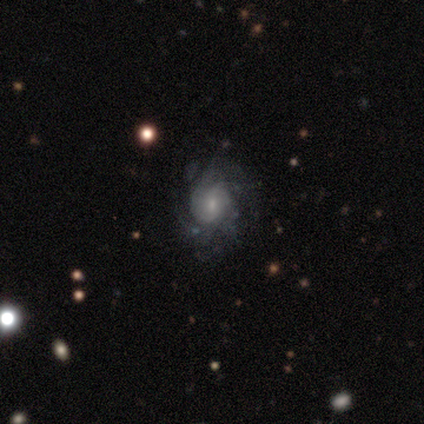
Overall: featured or disk (100%). Edge-on disk: no (100%). Bar: no (60%; weak 40%). Spiral arms: yes (100%). Spiral arm count: can't tell (40%; 2 20%). Spiral winding: tight (60%; loose 40%). Bulge size: small (60%; large 20%). Merging: none (40%, tied with minor disturbance).